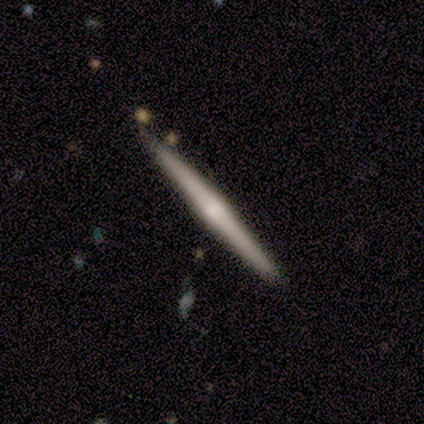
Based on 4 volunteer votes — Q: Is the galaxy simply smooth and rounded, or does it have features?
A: featured or disk — 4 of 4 (100%).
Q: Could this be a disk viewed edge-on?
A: yes — 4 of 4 (100%).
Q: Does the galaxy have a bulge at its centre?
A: rounded — 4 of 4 (100%).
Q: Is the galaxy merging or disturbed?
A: none — 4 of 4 (100%).